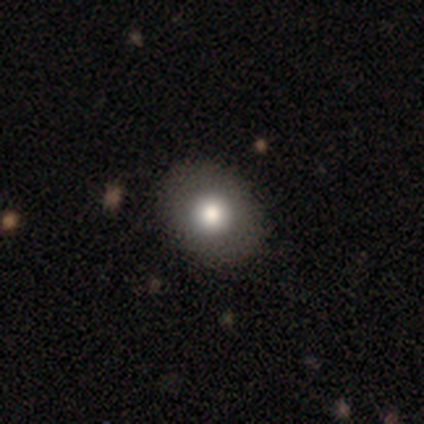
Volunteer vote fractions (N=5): Q: Smooth or featured?
A: smooth (60%); runner-up: featured or disk (40%)
Q: How rounded?
A: round (67%); runner-up: in between (33%)
Q: Merging?
A: none (60%); runner-up: minor disturbance (40%)